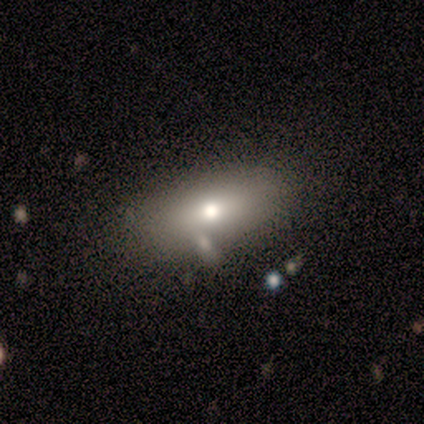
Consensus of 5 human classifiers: Morphology: type=smooth (80%); roundness=in between (100%); merging=none (100%).